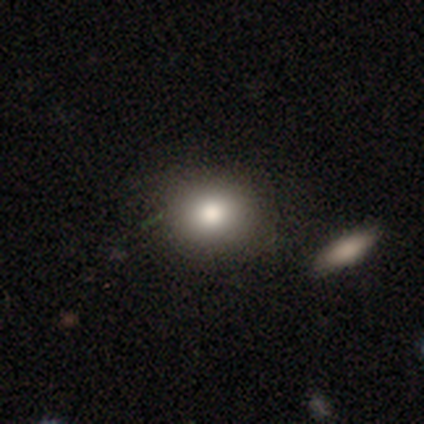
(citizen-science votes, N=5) Smooth or featured? 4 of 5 (80%) said smooth. How rounded? 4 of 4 (100%) said round. Merging? 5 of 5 (100%) said none.